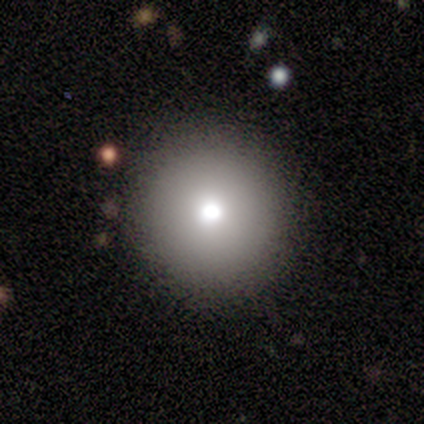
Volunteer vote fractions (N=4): Smooth or featured? 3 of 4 (75%) said smooth. How rounded? 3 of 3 (100%) said round. Merging? 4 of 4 (100%) said none.